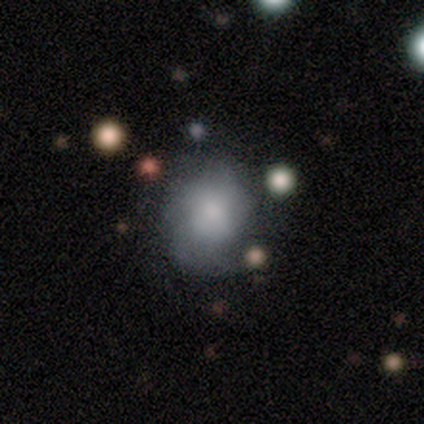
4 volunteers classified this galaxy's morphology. Volunteers were most divided on "how rounded": round: 67%, in between: 33%, cigar-shaped: 0%. More confident: smooth or featured — smooth (75%); merging — minor disturbance (75%).